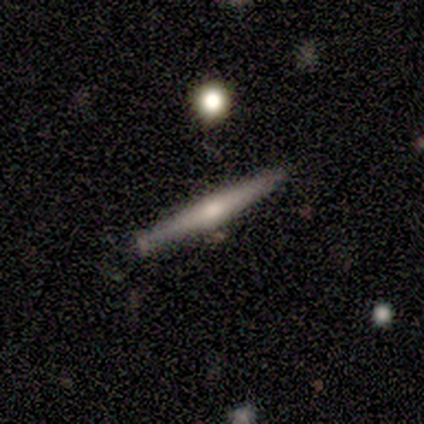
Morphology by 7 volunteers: Overall: smooth (86%). How rounded: cigar-shaped (100%). Merging: none (100%).